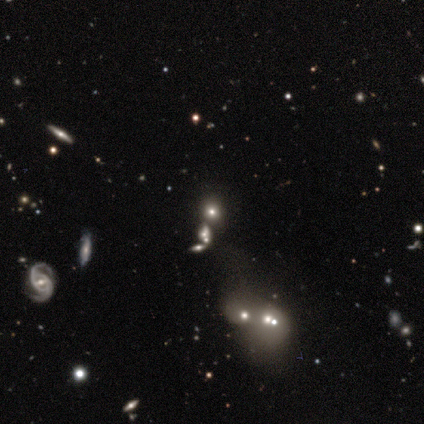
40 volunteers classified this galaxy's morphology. Smooth or featured: smooth — 45% (star or artifact — 35%)
How rounded: round — 78% (in between — 17%)
Merging: none — 50% (merger — 31%)